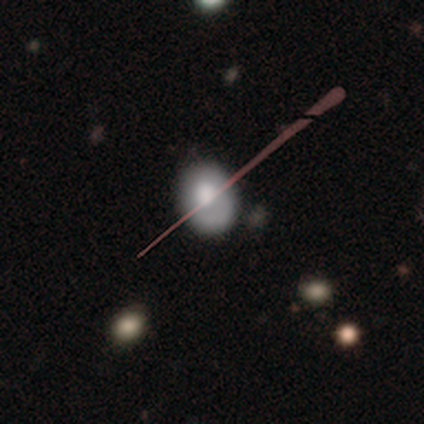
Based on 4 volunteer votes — Smooth or featured?
  - smooth: 50% * (tied)
  - star or artifact: 50% * (tied)
  - featured or disk: 0%
How rounded?
  - in between: 100% *
  - round: 0%
  - cigar-shaped: 0%
Merging?
  - none: 50% * (tied)
  - major disturbance: 50% * (tied)
  - minor disturbance: 0%
  - merger: 0%